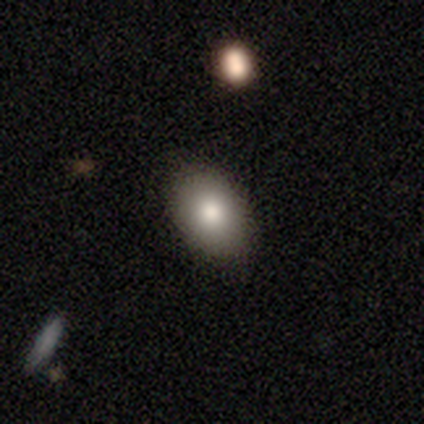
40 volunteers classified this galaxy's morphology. Smooth or featured? 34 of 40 (85%) said smooth. How rounded? 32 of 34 (94%) said in between. Merging? 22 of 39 (56%) said none.